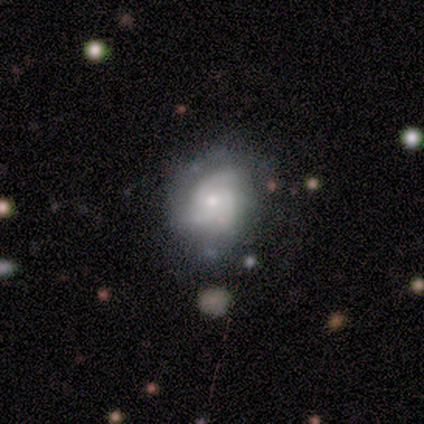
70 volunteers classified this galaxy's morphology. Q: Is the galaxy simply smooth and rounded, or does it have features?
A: featured or disk — 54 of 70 (77%).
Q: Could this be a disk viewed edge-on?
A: no — 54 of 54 (100%).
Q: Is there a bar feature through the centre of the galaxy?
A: no — 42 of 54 (78%).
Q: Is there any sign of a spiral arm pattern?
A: yes — 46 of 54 (85%).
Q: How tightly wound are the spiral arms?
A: tight — 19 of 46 (41%).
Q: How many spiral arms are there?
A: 3 — 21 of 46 (46%).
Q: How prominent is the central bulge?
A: small — 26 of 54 (48%).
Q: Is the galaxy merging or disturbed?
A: none — 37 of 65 (57%).